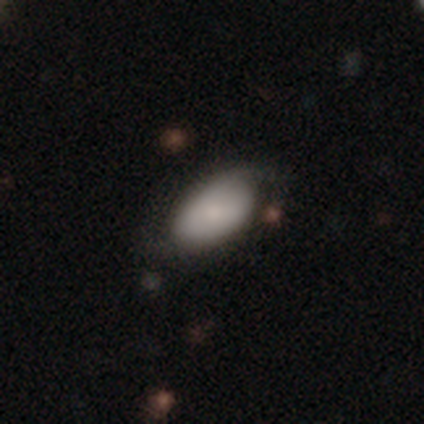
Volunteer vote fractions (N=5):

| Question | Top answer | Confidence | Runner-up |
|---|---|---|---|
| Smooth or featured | smooth | 80% | featured or disk (20%) |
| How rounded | in between | 100% | — |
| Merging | none | 100% | — |